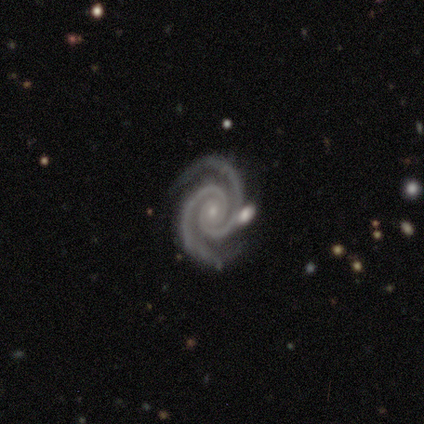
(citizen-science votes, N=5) A featured or disk galaxy (100%) with no bar (100%), 2 (100%) tight (100%) spiral arms (100%) and a small central bulge (100%).

Vote fractions:
- Smooth or featured? featured or disk: 100% / smooth: 0% / star or artifact: 0%
- Edge-on disk? no: 100% / yes: 0%
- Bar? no: 100% / strong: 0% / weak: 0%
- Spiral arms? yes: 100% / no: 0%
- Spiral winding? tight: 100% / medium: 0% / loose: 0%
- Spiral arm count? 2: 100% / 1: 0% / 3: 0% / 4: 0% / more than 4: 0% / can't tell: 0%
- Bulge size? small: 100% / dominant: 0% / large: 0% / moderate: 0% / none: 0%
- Merging? none: 80% / merger: 20% / minor disturbance: 0% / major disturbance: 0%